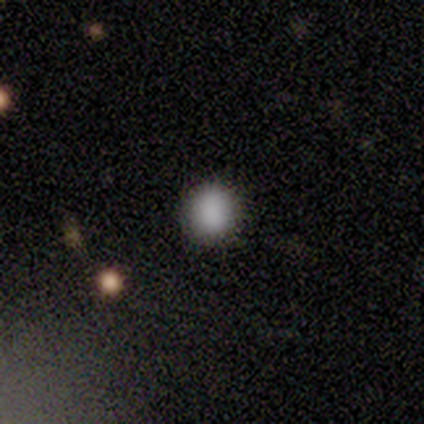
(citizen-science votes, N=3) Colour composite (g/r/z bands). It shows a smooth galaxy with no disk features (100%) that is round (100%). Merging: none (100%).